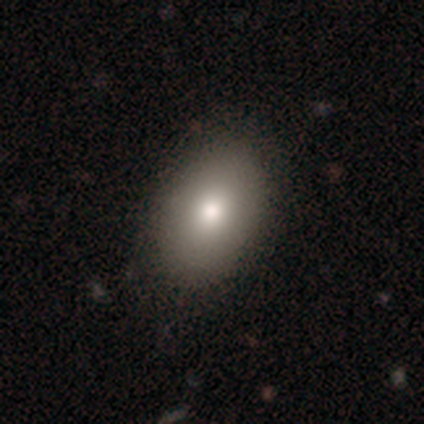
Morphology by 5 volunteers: smooth-or-featured: smooth: 80% | featured or disk: 20% | star or artifact: 0%
  how-rounded: in between: 100% | round: 0% | cigar-shaped: 0%
  merging: none: 100% | minor disturbance: 0% | major disturbance: 0% | merger: 0%